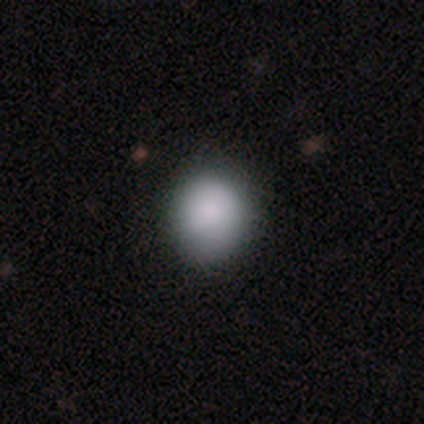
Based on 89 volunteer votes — Smooth or featured?
  - smooth: 91% *
  - star or artifact: 7%
  - featured or disk: 2%
How rounded?
  - round: 83% *
  - in between: 17%
  - cigar-shaped: 0%
Merging?
  - none: 83% *
  - minor disturbance: 14%
  - major disturbance: 1%
  - merger: 1%